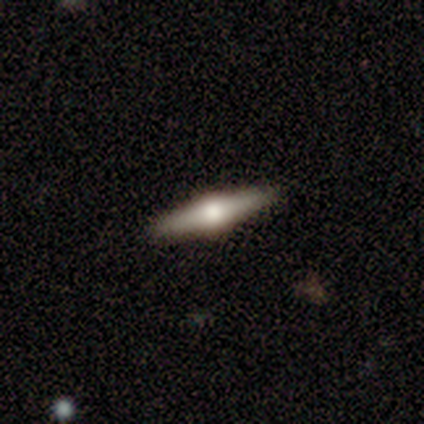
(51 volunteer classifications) Overall: featured or disk (75%). Edge-on disk: yes (89%). Edge-on bulge: rounded (97%). Merging: none (89%).